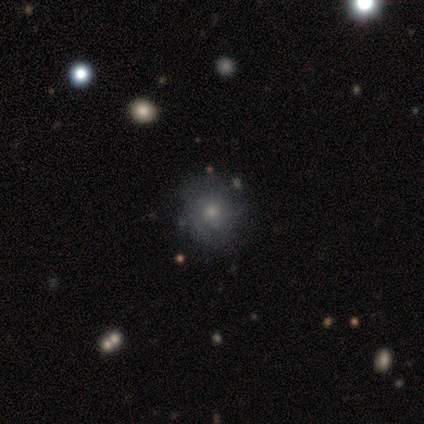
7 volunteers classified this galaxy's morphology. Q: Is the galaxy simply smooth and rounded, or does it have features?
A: smooth — 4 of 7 (57%).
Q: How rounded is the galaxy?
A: round — 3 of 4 (75%).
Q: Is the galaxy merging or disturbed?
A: none — 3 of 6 (50%).